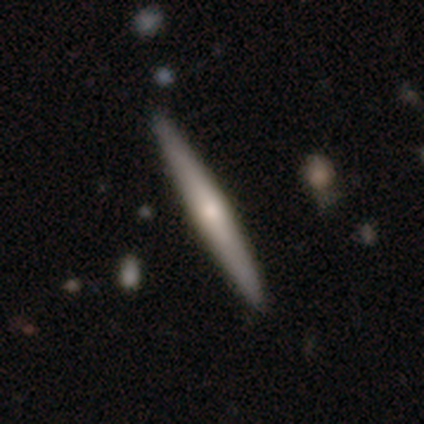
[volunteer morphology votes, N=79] This appears to be a featured or disk galaxy (49%) viewed edge-on (95%) with a rounded central bulge (65%). Merging: none (51%).